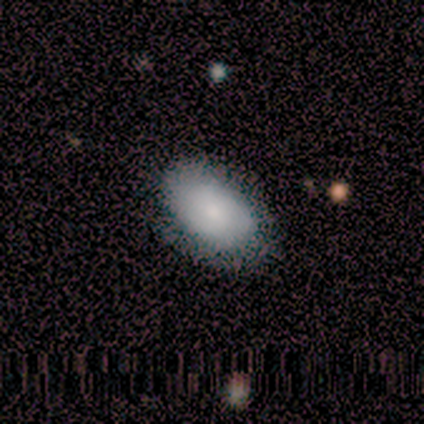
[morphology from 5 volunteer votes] smooth-or-featured: smooth: 60% | featured or disk: 20% | star or artifact: 20%
  how-rounded: in between: 67% | round: 33% | cigar-shaped: 0%
  merging: none: 75% | minor disturbance: 25% | major disturbance: 0% | merger: 0%